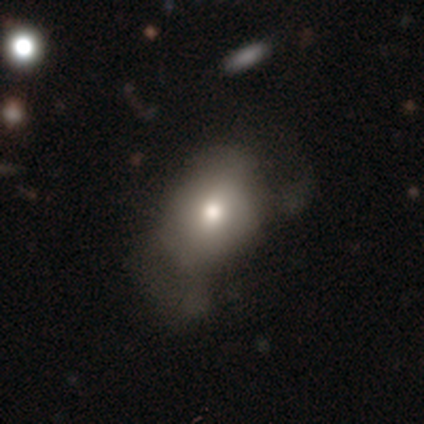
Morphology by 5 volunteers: Smooth or featured?
  - smooth: 100% *
  - featured or disk: 0%
  - star or artifact: 0%
How rounded?
  - in between: 80% *
  - round: 20%
  - cigar-shaped: 0%
Merging?
  - minor disturbance: 40% * (tied)
  - major disturbance: 40% * (tied)
  - none: 20%
  - merger: 0%